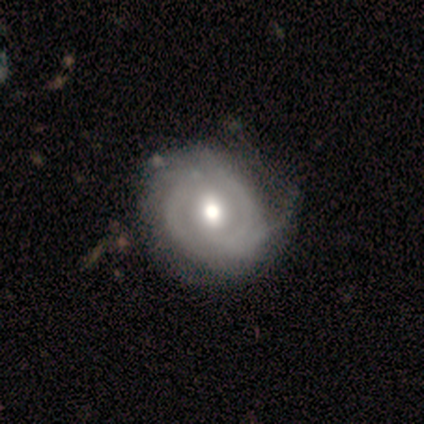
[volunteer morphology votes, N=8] This appears to be a featured or disk galaxy (62%) with a weak bar (60%), 2 (75%) tight (75%) spiral arms (80%) and a moderate central bulge (60%). Merging: minor disturbance (57%).